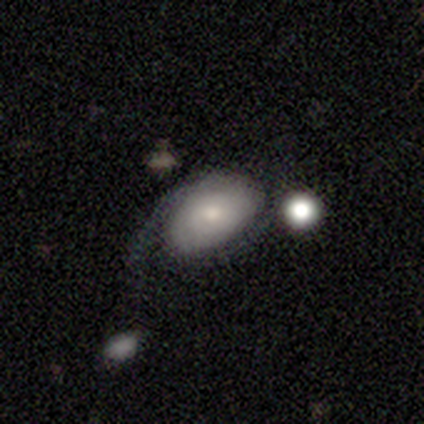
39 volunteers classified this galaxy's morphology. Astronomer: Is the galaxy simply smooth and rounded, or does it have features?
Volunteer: smooth — 51% (runner-up: featured or disk, 44%).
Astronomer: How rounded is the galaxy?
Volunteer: in between — 85%.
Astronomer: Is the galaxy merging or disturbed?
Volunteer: none — 38% (runner-up: major disturbance, 30%).